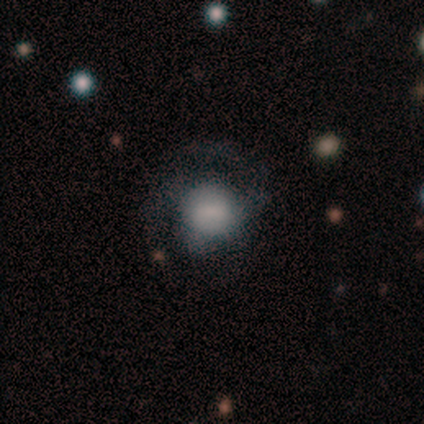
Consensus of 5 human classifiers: This is clearly a smooth galaxy (80%). How rounded: likely round (75%). Merging: clearly none (80%).